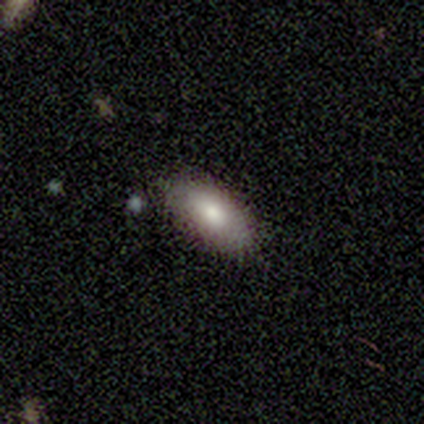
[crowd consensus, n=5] Volunteers were most divided on "how rounded": in between: 60%, cigar-shaped: 40%, round: 0%. More confident: smooth or featured — smooth (100%); merging — none (60%).